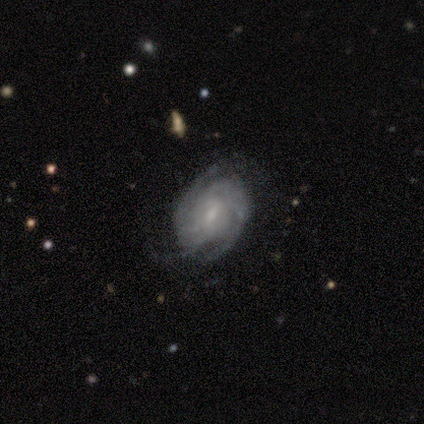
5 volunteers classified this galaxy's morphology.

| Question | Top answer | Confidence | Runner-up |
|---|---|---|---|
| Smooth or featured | featured or disk | 100% | — |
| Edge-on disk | no | 100% | — |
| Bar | weak | 80% | no (20%) |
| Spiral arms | yes | 100% | — |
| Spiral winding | tight | 60% | medium (40%) |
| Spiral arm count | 3 | 60% | 2 (20%) |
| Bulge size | moderate | 60% | small (40%) |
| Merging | none | 80% | major disturbance (20%) |